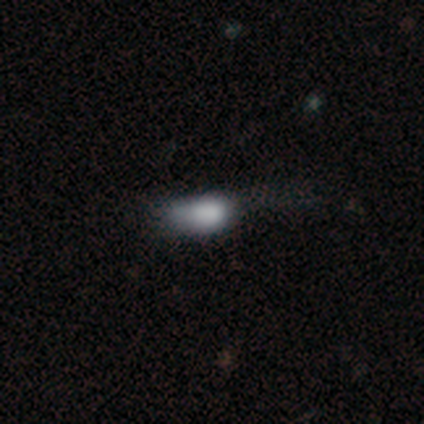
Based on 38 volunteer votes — Q: Smooth or featured?
A: smooth (68%); runner-up: featured or disk (16%)
Q: How rounded?
A: in between (81%); runner-up: round (12%)
Q: Merging?
A: minor disturbance (41%); runner-up: none (28%)